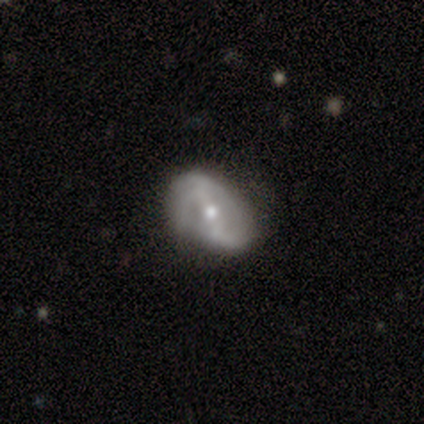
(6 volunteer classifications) Smooth or featured?
  - featured or disk: 67% *
  - smooth: 33%
  - star or artifact: 0%
Edge-on disk?
  - no: 100% *
  - yes: 0%
Bar?
  - strong: 50% * (tied)
  - weak: 50% * (tied)
  - no: 0%
Spiral arms?
  - yes: 75% *
  - no: 25%
Spiral winding?
  - loose: 67% *
  - medium: 33%
  - tight: 0%
Spiral arm count?
  - 2: 67% *
  - can't tell: 33%
  - 1: 0%
  - 3: 0%
  - 4: 0%
  - more than 4: 0%
Bulge size?
  - moderate: 50% * (tied)
  - small: 50% * (tied)
  - dominant: 0%
  - large: 0%
  - none: 0%
Merging?
  - none: 100% *
  - minor disturbance: 0%
  - major disturbance: 0%
  - merger: 0%